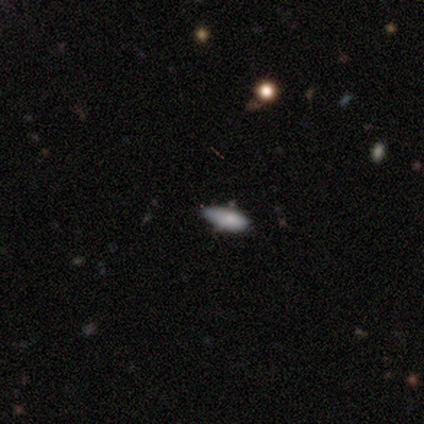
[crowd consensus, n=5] This appears to be a smooth galaxy with no disk features (80%) that is in between round and cigar-shaped (100%). Merging: none (75%).